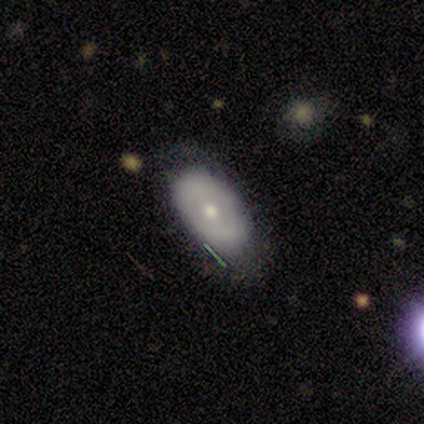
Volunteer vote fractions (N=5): This is likely a featured or disk galaxy (60%). It is likely viewed edge-on (67%). Edge-on bulge: clearly rounded (100%). Merging: marginally none (40%, tied with minor disturbance).